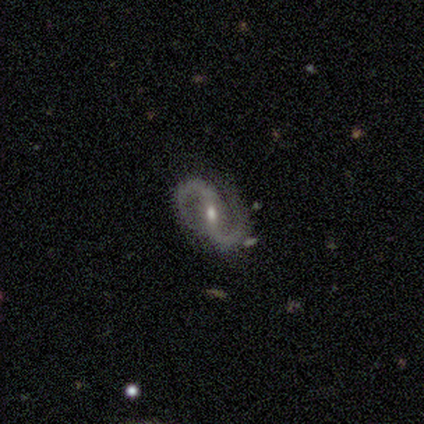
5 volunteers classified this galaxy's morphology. Smooth or featured? 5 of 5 (100%) said featured or disk. Edge-on disk? 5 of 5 (100%) said no. Bar? 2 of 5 (40%, tied with no) said weak. Spiral arms? 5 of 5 (100%) said yes. Spiral winding? 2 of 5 (40%, tied with medium) said tight. Spiral arm count? 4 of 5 (80%) said 2. Bulge size? 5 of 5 (100%) said small. Merging? 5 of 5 (100%) said none.